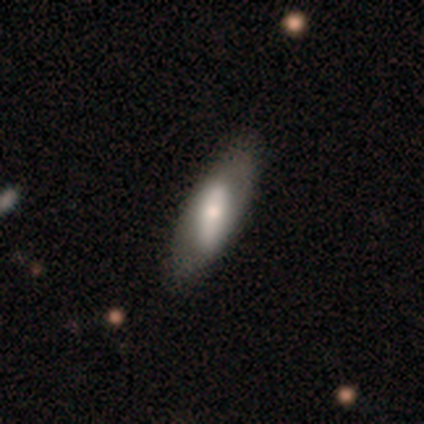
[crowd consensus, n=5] smooth_or_featured: smooth (p=0.80) [alt: featured or disk p=0.20]
how_rounded: in between (p=0.75) [alt: round p=0.25]
merging: none (p=1.00)